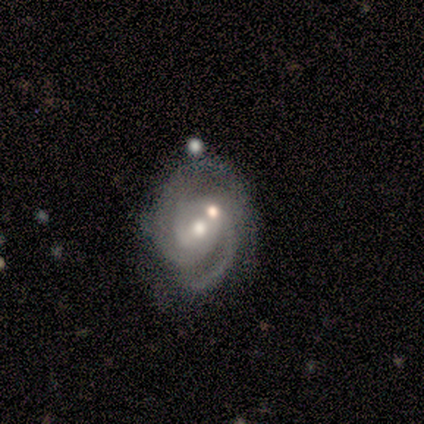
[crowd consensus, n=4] Smooth or featured?
  - featured or disk: 75% *
  - smooth: 25%
  - star or artifact: 0%
Edge-on disk?
  - no: 100% *
  - yes: 0%
Bar?
  - weak: 67% *
  - strong: 33%
  - no: 0%
Spiral arms?
  - yes: 100% *
  - no: 0%
Spiral winding?
  - tight: 67% *
  - medium: 33%
  - loose: 0%
Spiral arm count?
  - 3: 67% *
  - 2: 33%
  - 1: 0%
  - 4: 0%
  - more than 4: 0%
  - can't tell: 0%
Bulge size?
  - moderate: 67% *
  - large: 33%
  - dominant: 0%
  - small: 0%
  - none: 0%
Merging?
  - major disturbance: 50% *
  - none: 25%
  - minor disturbance: 25%
  - merger: 0%